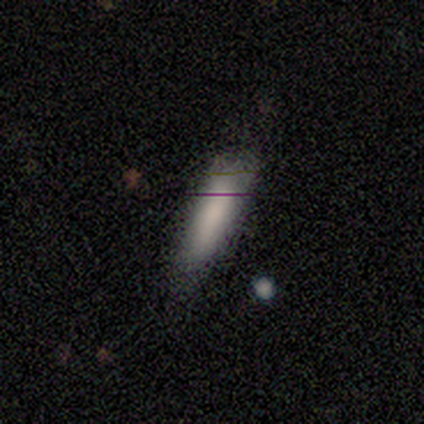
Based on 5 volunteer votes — Morphology: type=smooth (60%); roundness=cigar-shaped (100%); merging=minor disturbance (60%).